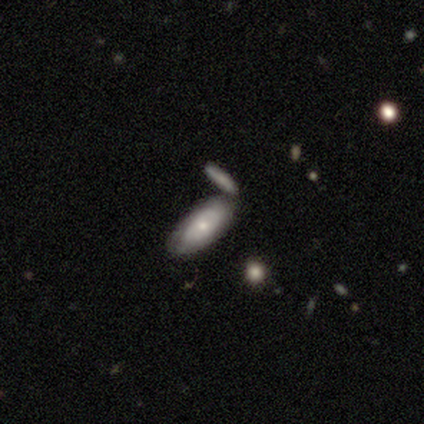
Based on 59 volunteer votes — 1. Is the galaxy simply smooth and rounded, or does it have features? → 47% featured or disk, 44% smooth, 8% star or artifact.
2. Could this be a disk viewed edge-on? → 89% no, 11% yes.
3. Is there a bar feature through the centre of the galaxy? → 84% no, 12% weak, 4% strong.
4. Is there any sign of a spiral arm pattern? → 60% no, 40% yes.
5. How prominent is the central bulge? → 56% small, 32% moderate, 12% large, 0% dominant, 0% none.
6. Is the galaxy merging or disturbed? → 63% none, 20% merger, 15% minor disturbance, 2% major disturbance.